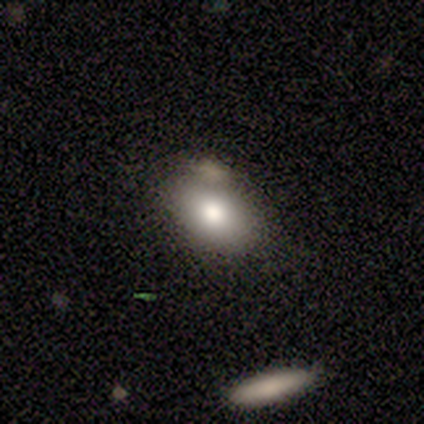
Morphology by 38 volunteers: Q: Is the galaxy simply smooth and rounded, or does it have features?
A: smooth — 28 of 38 (74%).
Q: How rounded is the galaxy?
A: in between — 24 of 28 (86%).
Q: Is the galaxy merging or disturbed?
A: none — 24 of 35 (69%).